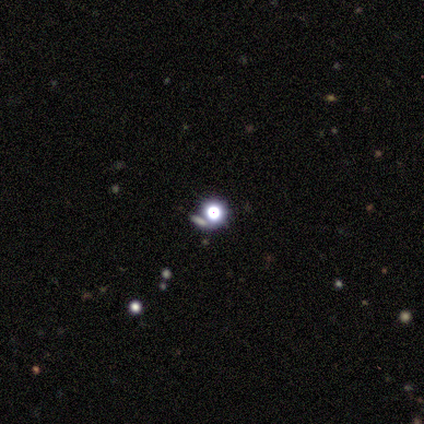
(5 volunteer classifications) A smooth galaxy with no disk features (60%) that is round (100%). Merging: none (100%).